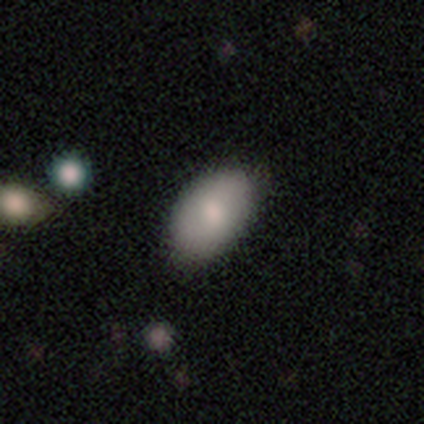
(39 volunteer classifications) Overall: smooth (85%). How rounded: in between (97%). Merging: none (70%).